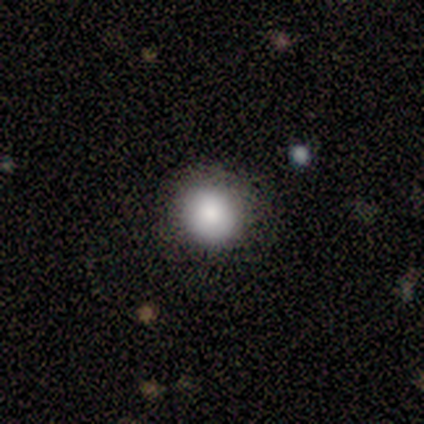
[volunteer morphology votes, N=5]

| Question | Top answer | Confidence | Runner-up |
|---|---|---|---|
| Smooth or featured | smooth | 80% | featured or disk (20%) |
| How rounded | round | 100% | — |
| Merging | none | 100% | — |